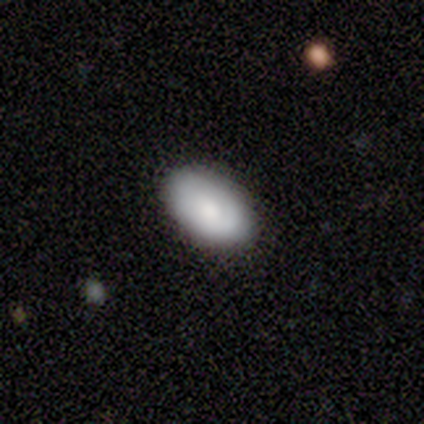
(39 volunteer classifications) smooth 77%, featured or disk 21%, star or artifact 3%. Down the decision tree: how rounded — in between (93%); merging — none (84%).